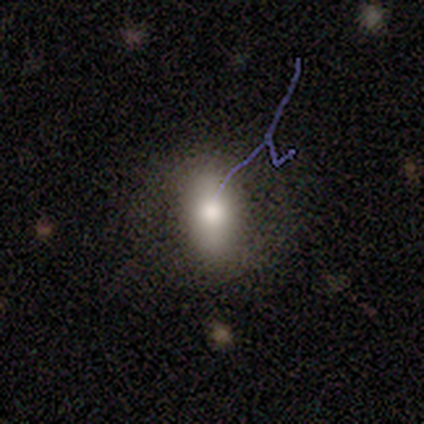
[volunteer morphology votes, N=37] Smooth or featured?
  - smooth: 73% *
  - featured or disk: 16%
  - star or artifact: 11%
How rounded?
  - in between: 89% *
  - cigar-shaped: 7%
  - round: 4%
Merging?
  - none: 76% *
  - minor disturbance: 18%
  - major disturbance: 6%
  - merger: 0%